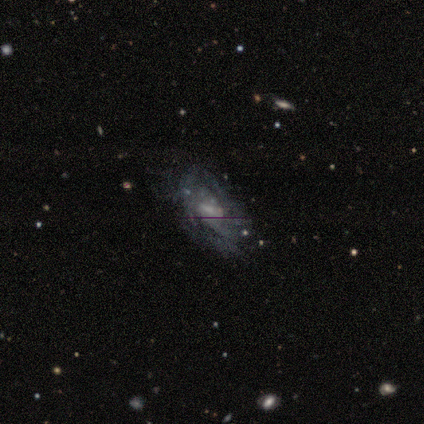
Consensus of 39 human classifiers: Smooth or featured? featured or disk (79%)
Edge-on disk? no (90%)
Bar? weak (61%)
Spiral arms? yes (68%)
Spiral winding? tight (53%)
Spiral arm count? can't tell (79%)
Bulge size? small (39%)
Merging? none (51%)